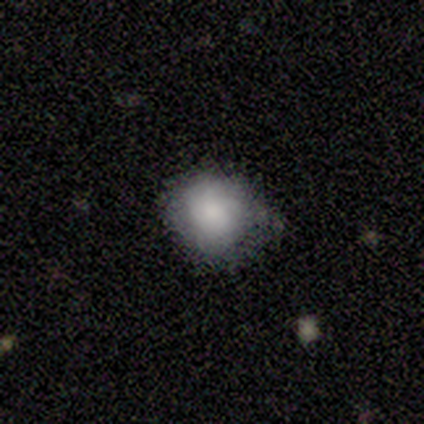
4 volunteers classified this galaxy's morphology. type=smooth (100%); roundness=round (100%); merging=none (75%).